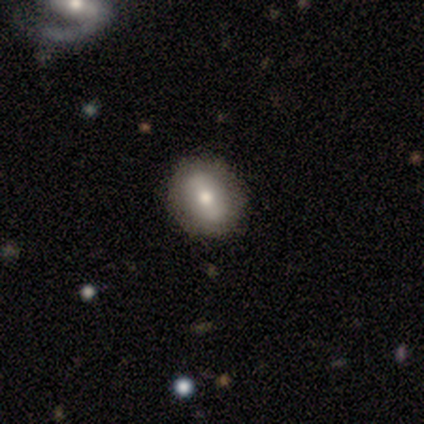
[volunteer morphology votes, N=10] Overall: smooth (80%). How rounded: round (62%; in between 38%). Merging: none (90%).